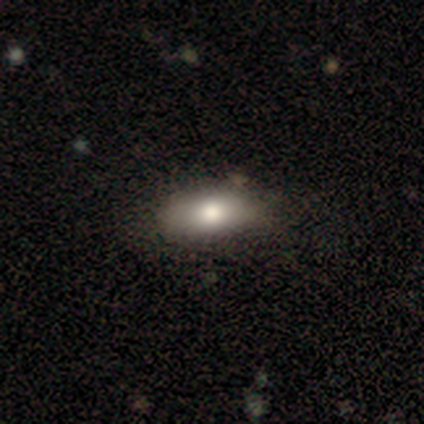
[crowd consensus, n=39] Smooth or featured?
  - smooth: 74% *
  - featured or disk: 18%
  - star or artifact: 8%
How rounded?
  - in between: 72% *
  - cigar-shaped: 24%
  - round: 3%
Merging?
  - none: 69% *
  - minor disturbance: 8%
  - major disturbance: 3%
  - merger: 3%